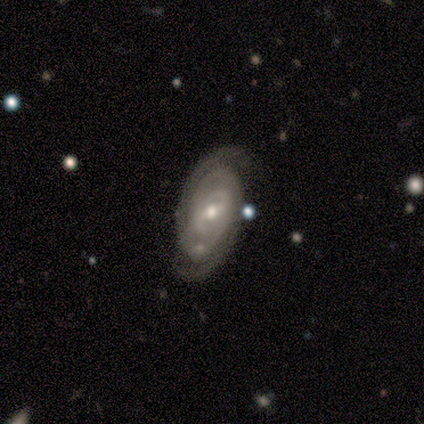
This appears to be a featured or disk galaxy (95%) with a weak bar (69%), 2 (88%) tight (76%) spiral arms (94%) and a small central bulge (54%). Merging: none (76%).